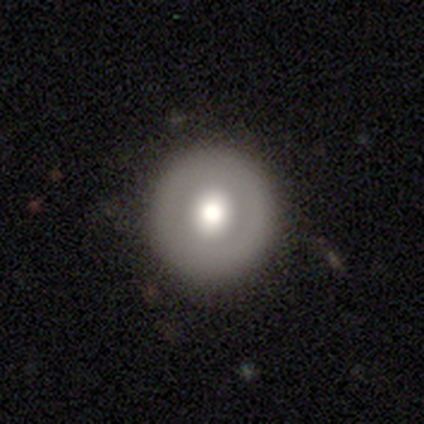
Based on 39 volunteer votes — Overall: smooth (51%; featured or disk 33%). How rounded: round (100%). Merging: none (94%).